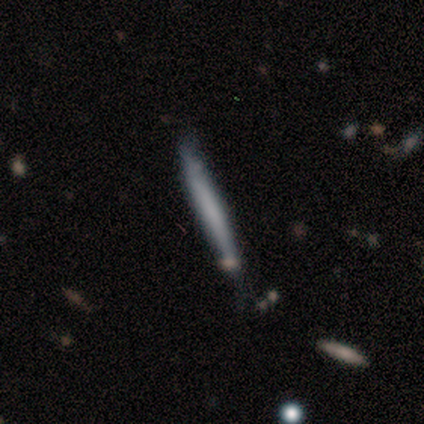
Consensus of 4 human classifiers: Volunteers were most divided on "smooth or featured": smooth: 75%, star or artifact: 25%, featured or disk: 0%. More confident: how rounded — cigar-shaped (100%); merging — none (100%).